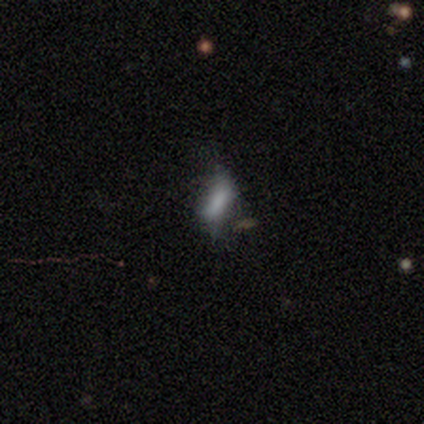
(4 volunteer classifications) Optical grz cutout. It shows a smooth galaxy with no disk features (50%, tied with star or artifact) that is in between round and cigar-shaped (100%). Merging: minor disturbance (100%).